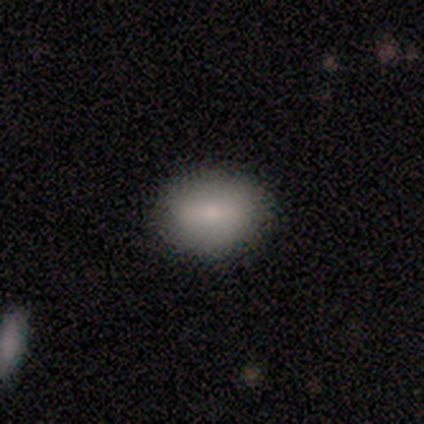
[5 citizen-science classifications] Morphology: type=smooth (60%); roundness=in between (100%); merging=none (100%).